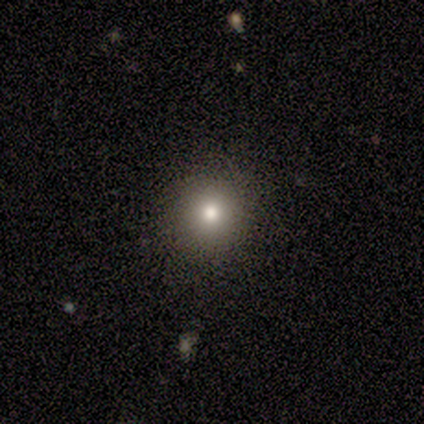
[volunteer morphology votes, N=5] Smooth or featured? smooth (80%)
How rounded? round (100%)
Merging? none (60%)